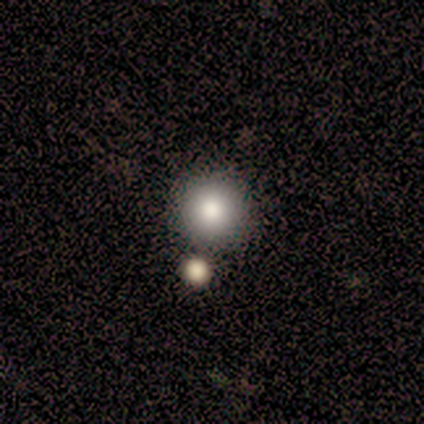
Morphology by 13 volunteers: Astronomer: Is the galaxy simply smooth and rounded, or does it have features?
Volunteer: smooth — 100%.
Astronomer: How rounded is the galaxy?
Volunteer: round — 85%.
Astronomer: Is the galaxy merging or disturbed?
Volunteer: none — 85%.